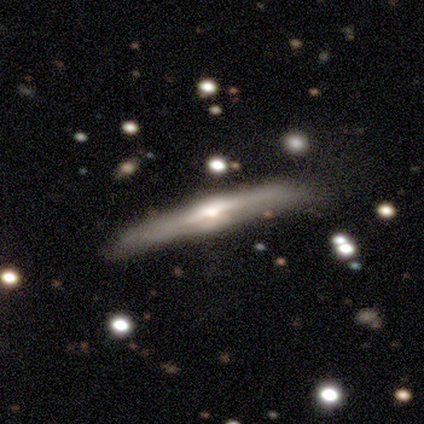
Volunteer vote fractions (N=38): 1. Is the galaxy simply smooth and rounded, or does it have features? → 82% featured or disk, 13% smooth, 5% star or artifact.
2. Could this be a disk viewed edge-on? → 97% yes, 3% no.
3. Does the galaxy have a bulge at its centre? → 67% rounded, 17% boxy, 17% none.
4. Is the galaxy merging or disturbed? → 64% none, 25% minor disturbance, 6% major disturbance, 6% merger.